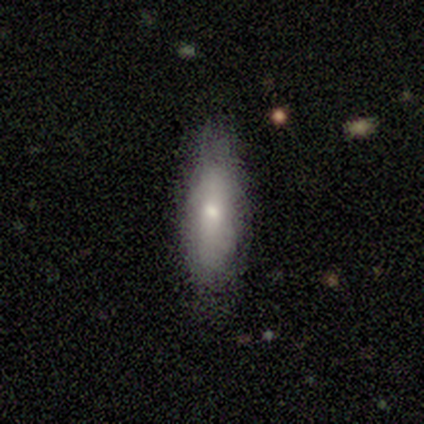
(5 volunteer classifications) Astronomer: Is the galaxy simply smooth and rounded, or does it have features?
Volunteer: smooth — 80%.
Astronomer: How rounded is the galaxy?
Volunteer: in between — 75%.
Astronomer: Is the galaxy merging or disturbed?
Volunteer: none — 60% (runner-up: minor disturbance, 40%).